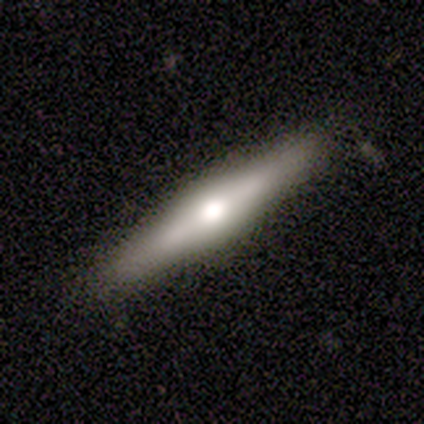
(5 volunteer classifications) Volunteers were most divided on "edge-on disk": yes: 75%, no: 25%. More confident: edge-on bulge — rounded (100%); merging — none (100%); smooth or featured — featured or disk (80%).